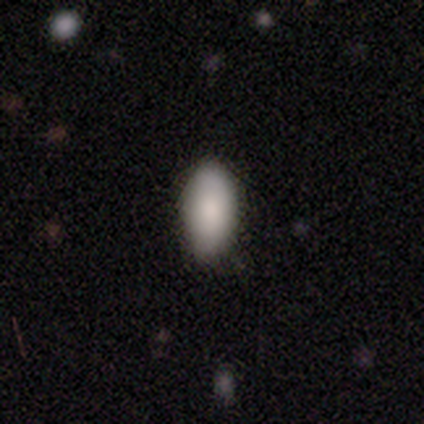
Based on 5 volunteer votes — Smooth or featured? smooth (100%)
How rounded? in between (100%)
Merging? none (80%)